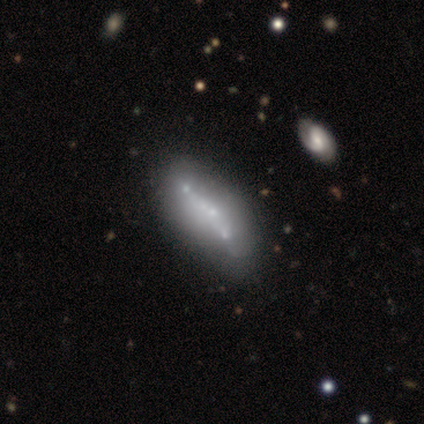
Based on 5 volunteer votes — Volunteers were most divided on "smooth or featured" (2-way tie): featured or disk: 40%, star or artifact: 40%, smooth: 20%; "edge-on disk" (2-way tie): yes: 50%, no: 50%; "merging" (3-way tie): none: 33%, minor disturbance: 33%, merger: 33%, major disturbance: 0%. More confident: edge-on bulge — none (100%).